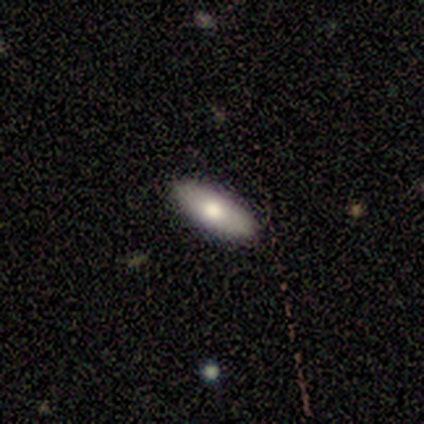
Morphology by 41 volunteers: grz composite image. It shows a smooth galaxy with no disk features (80%) that is in between round and cigar-shaped (73%). Merging: none (90%).